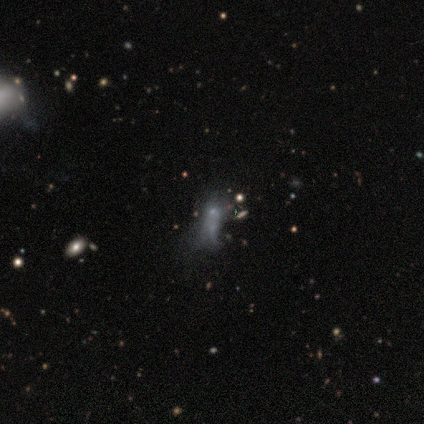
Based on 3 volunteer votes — A smooth galaxy with no disk features (33%, tied with featured or disk and star or artifact) that is in between round and cigar-shaped (100%).

Vote fractions:
- Smooth or featured? smooth: 33% (tied) / featured or disk: 33% (tied) / star or artifact: 33% (tied)
- How rounded? in between: 100% / round: 0% / cigar-shaped: 0%
- Merging? minor disturbance: 50% (tied) / major disturbance: 50% (tied) / none: 0% / merger: 0%